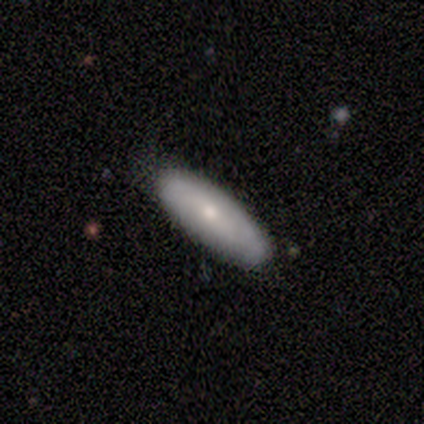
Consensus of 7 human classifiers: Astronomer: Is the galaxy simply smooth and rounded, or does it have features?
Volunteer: smooth — 86%.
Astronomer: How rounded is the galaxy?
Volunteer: in between — 50%, tied with cigar-shaped at 50%.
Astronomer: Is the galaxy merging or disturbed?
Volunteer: none — 86%.